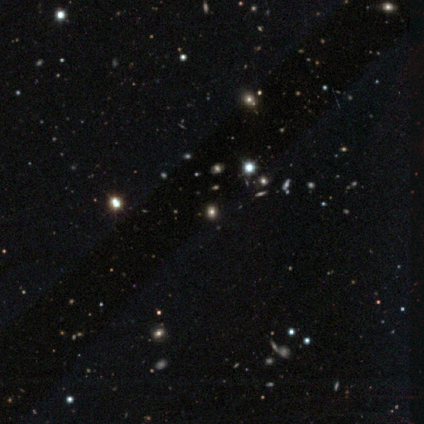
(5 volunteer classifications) Smooth or featured? 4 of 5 (80%) said star or artifact.